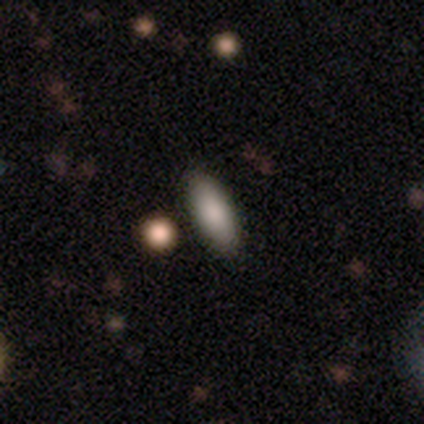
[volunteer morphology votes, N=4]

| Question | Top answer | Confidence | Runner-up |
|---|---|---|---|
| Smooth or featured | smooth | 50% | featured or disk (25%) |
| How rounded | in between | 100% | — |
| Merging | none | 67% | merger (33%) |